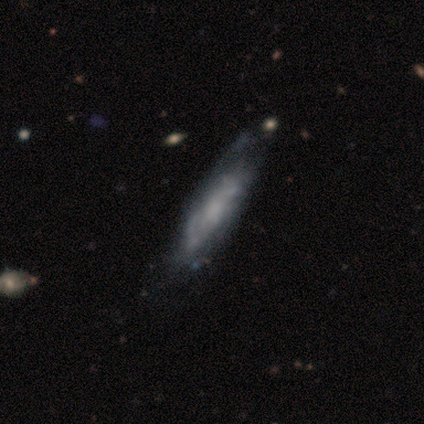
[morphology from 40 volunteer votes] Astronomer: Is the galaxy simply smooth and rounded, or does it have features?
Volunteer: featured or disk — 65%.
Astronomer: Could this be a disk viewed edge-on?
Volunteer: no — 73%.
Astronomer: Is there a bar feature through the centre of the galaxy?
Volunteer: no — 79%.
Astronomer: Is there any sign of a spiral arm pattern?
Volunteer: yes — 58% (runner-up: no, 42%).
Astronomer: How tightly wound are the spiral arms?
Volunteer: medium — 64%.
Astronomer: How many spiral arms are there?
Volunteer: can't tell — 91%.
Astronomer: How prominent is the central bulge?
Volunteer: none — 68%.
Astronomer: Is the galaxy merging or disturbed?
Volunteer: none — 37% (runner-up: minor disturbance, 31%).